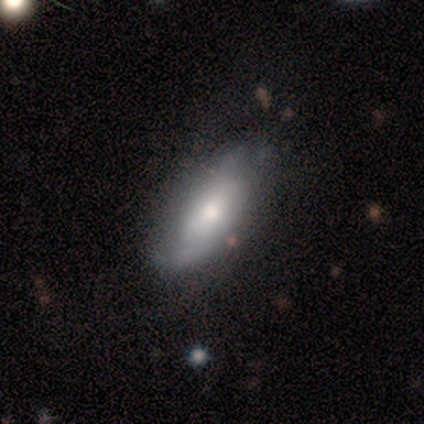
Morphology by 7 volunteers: Smooth or featured?
  - smooth: 71% *
  - featured or disk: 29%
  - star or artifact: 0%
How rounded?
  - in between: 100% *
  - round: 0%
  - cigar-shaped: 0%
Merging?
  - none: 57% *
  - minor disturbance: 43%
  - major disturbance: 0%
  - merger: 0%